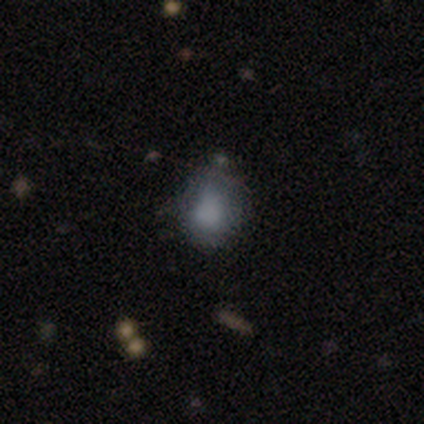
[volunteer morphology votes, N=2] Q: Smooth or featured?
A: smooth (100%)
Q: How rounded?
A: in between (100%)
Q: Merging?
A: none (50%); tied with: major disturbance (50%)